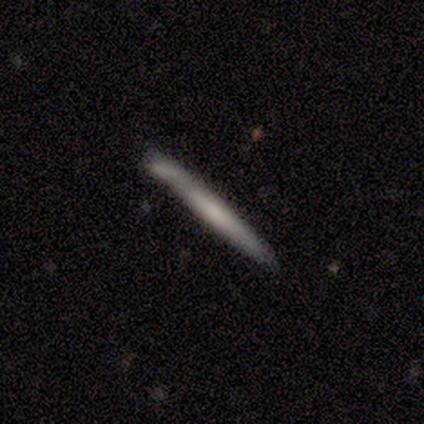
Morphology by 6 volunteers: Overall: smooth (83%). How rounded: cigar-shaped (100%). Merging: none (83%).